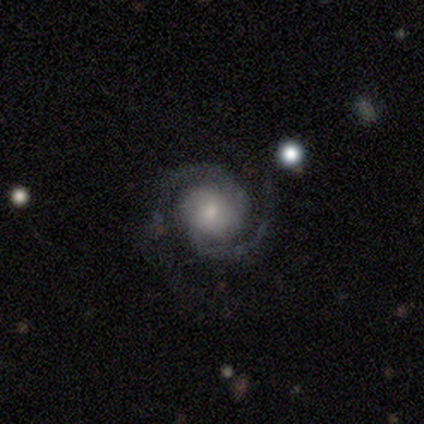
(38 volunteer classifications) A featured or disk galaxy (100%) with no bar (76%), 2 (95%) medium (50%) spiral arms (100%) and a small central bulge (42%). Merging: none (63%).